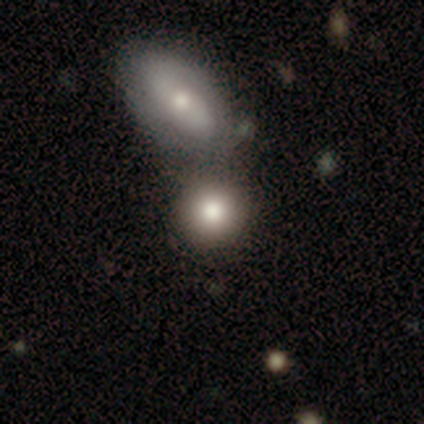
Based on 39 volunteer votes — Overall: smooth (74%). How rounded: round (69%). Merging: none (61%; merger 36%).